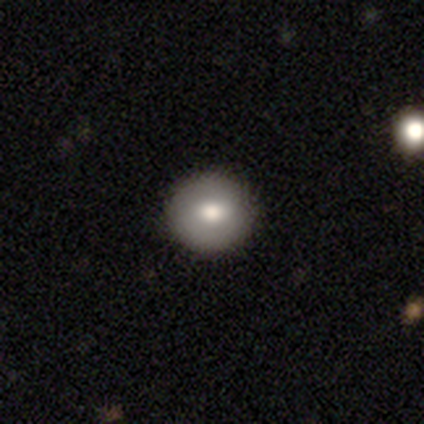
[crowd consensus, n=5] A smooth galaxy with no disk features (80%) that is round (100%).

Vote fractions:
- Smooth or featured? smooth: 80% / star or artifact: 20% / featured or disk: 0%
- How rounded? round: 100% / in between: 0% / cigar-shaped: 0%
- Merging? none: 100% / minor disturbance: 0% / major disturbance: 0% / merger: 0%